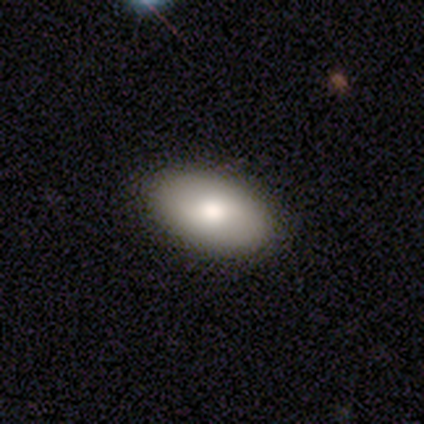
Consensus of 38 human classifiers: smooth_or_featured: smooth (p=0.82) [alt: featured or disk p=0.18]
how_rounded: in between (p=0.94) [alt: round p=0.06]
merging: none (p=0.95) [alt: minor disturbance p=0.05]